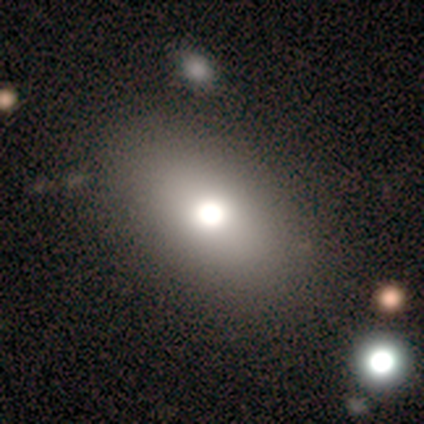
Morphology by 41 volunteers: Smooth or featured? 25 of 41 (61%) said smooth. How rounded? 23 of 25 (92%) said in between. Merging? 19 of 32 (59%) said none.